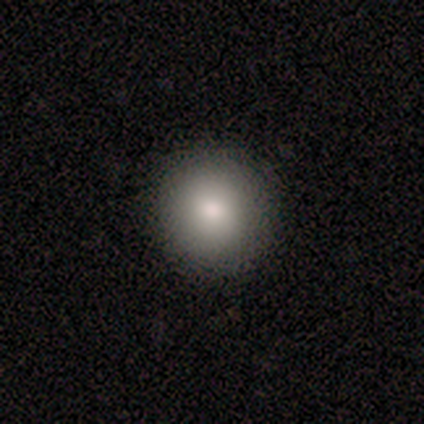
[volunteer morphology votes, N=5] Smooth or featured? 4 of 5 (80%) said smooth. How rounded? 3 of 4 (75%) said round. Merging? 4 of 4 (100%) said none.